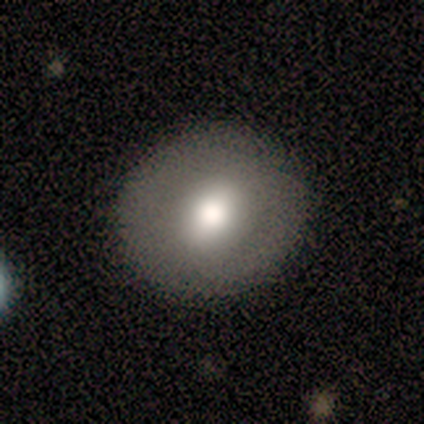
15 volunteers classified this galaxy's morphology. A smooth galaxy with no disk features (53%) that is round (88%).

Vote fractions:
- Smooth or featured? smooth: 53% / featured or disk: 40% / star or artifact: 7%
- How rounded? round: 88% / in between: 12% / cigar-shaped: 0%
- Merging? none: 86% / minor disturbance: 14% / major disturbance: 0% / merger: 0%